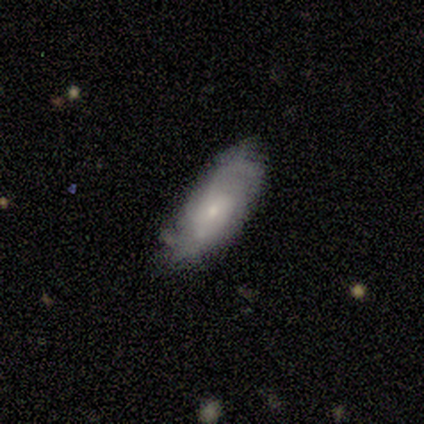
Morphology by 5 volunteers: smooth 60%, featured or disk 40%, star or artifact 0%. Down the decision tree: how rounded — in between (100%); merging — none (80%).